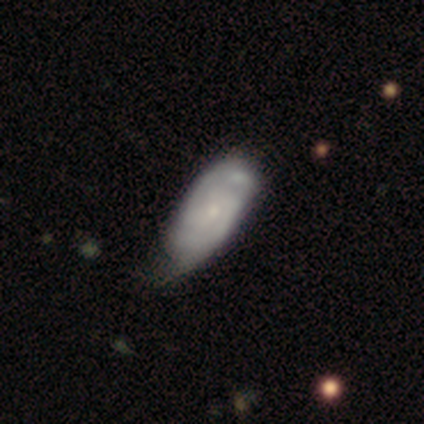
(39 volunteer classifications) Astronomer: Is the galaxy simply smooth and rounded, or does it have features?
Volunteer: featured or disk — 69%.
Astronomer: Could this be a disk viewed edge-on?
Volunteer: no — 96%.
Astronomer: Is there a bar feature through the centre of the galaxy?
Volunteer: no — 73%.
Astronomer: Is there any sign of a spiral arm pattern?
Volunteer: yes — 81%.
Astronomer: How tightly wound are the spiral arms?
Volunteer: medium — 48% (runner-up: tight, 43%).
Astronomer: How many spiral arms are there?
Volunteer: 2 — 57%.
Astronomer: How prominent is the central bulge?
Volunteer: small — 73%.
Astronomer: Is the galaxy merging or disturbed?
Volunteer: minor disturbance — 32% (runner-up: none, 24%).